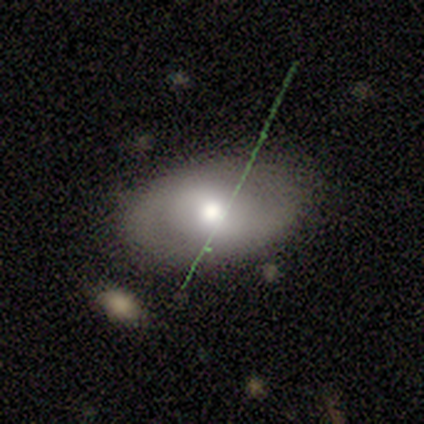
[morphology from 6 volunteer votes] Overall: featured or disk (67%; smooth 33%). Edge-on disk: no (75%). Bar: no (67%; weak 33%). Spiral arms: no (67%; yes 33%). Bulge size: moderate (100%). Merging: none (83%).